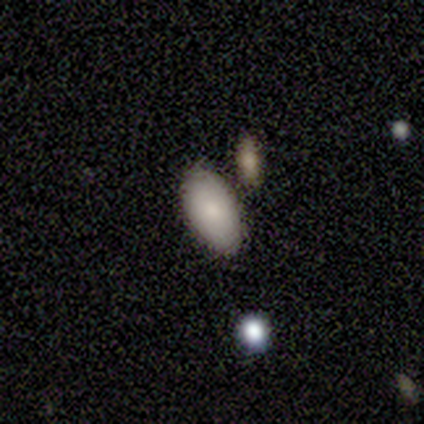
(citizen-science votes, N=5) This appears to be a smooth galaxy with no disk features (80%) that is in between round and cigar-shaped (100%). Merging: none (80%).